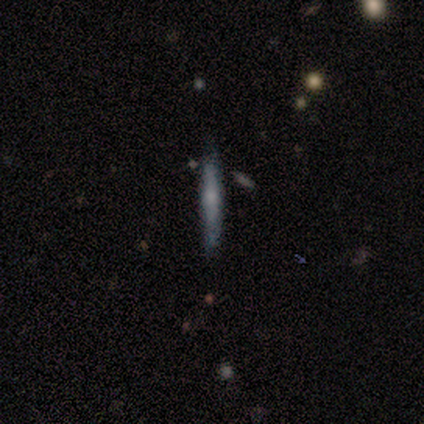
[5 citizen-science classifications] Q: Smooth or featured?
A: featured or disk (100%)
Q: Edge-on disk?
A: yes (100%)
Q: Edge-on bulge?
A: rounded (60%); runner-up: boxy (20%)
Q: Merging?
A: none (60%); runner-up: minor disturbance (20%)